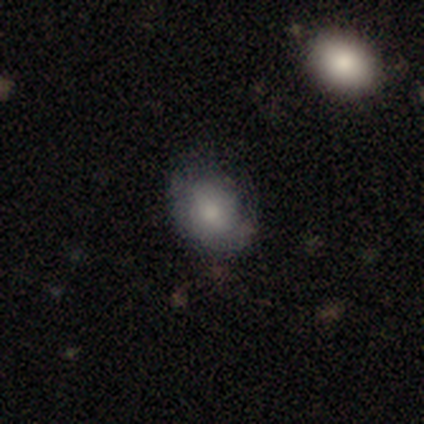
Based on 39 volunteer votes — Smooth or featured? smooth (67%)
How rounded? in between (62%)
Merging? none (67%)